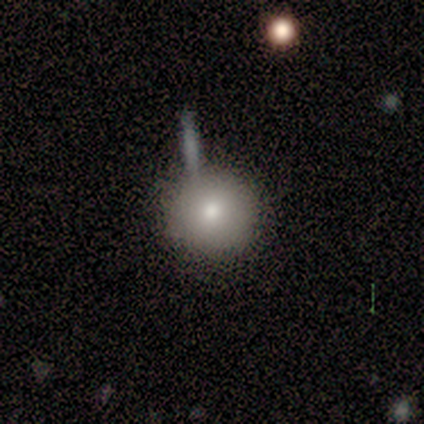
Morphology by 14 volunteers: type=smooth (64%); roundness=round (100%); merging=none (67%).